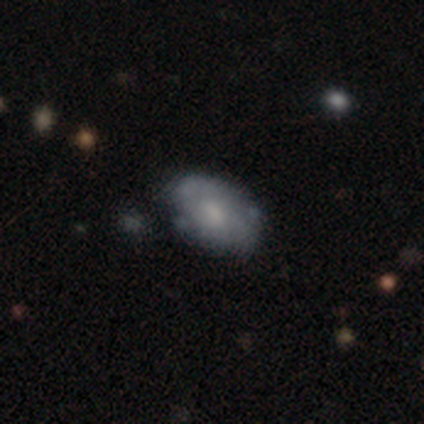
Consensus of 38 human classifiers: featured or disk 55%, smooth 37%, star or artifact 8%. Down the decision tree: edge-on disk — no (90%); bar — no (74%); spiral arms — yes (53%); spiral arm count — can't tell (50%); spiral winding — tight (50%); bulge size — moderate (47%); merging — none (66%).